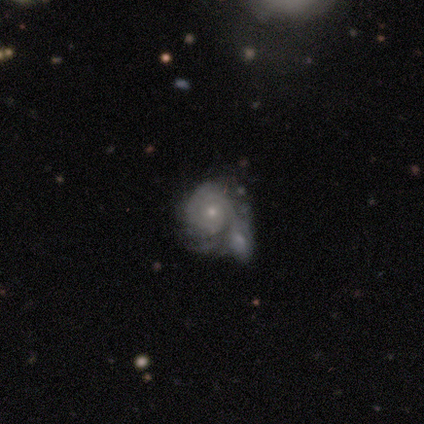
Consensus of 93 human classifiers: smooth_or_featured: featured or disk (p=0.78) [alt: smooth p=0.14]
disk_edge_on: no (p=0.99) [alt: yes p=0.01]
bar: no (p=0.90) [alt: weak p=0.08]
has_spiral_arms: yes (p=0.90) [alt: no p=0.10]
spiral_winding: tight (p=0.82) [alt: medium p=0.12]
spiral_arm_count: can't tell (p=0.45) [alt: 2 p=0.29]
bulge_size: small (p=0.67) [alt: moderate p=0.26]
merging: merger (p=0.57) [alt: minor disturbance p=0.19]